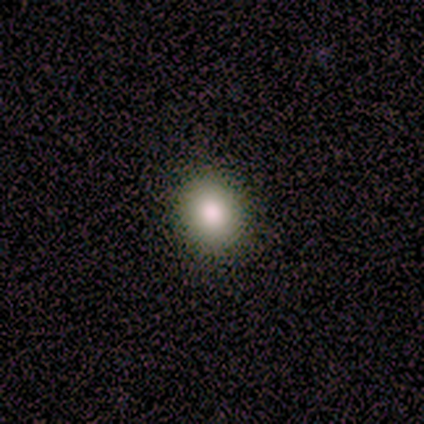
This is likely a smooth galaxy (75%). How rounded: clearly round (100%). Merging: clearly none (100%).